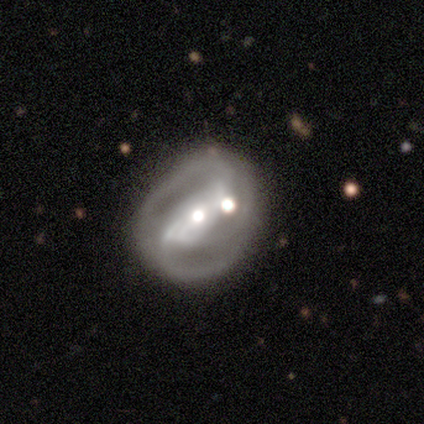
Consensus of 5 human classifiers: A featured or disk galaxy (100%) with a weak bar (40%, tied with no), 3 (67%) medium (67%) spiral arms (60%) and a moderate central bulge (40%, tied with small). Merging: none (60%).